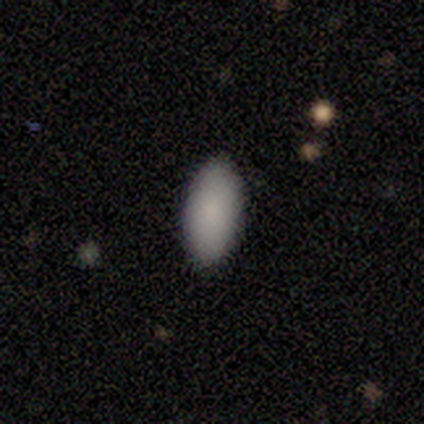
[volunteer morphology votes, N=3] This appears to be a smooth galaxy with no disk features (100%) that is in between round and cigar-shaped (100%). Merging: none (100%).